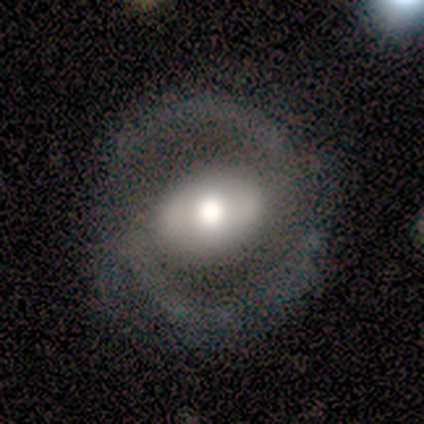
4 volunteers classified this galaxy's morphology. Q: Smooth or featured?
A: featured or disk (75%); runner-up: smooth (25%)
Q: Edge-on disk?
A: no (100%)
Q: Bar?
A: strong (67%); runner-up: weak (33%)
Q: Spiral arms?
A: yes (67%); runner-up: no (33%)
Q: Spiral winding?
A: tight (50%); tied with: loose (50%)
Q: Spiral arm count?
A: 2 (100%)
Q: Bulge size?
A: moderate (67%); runner-up: small (33%)
Q: Merging?
A: none (75%); runner-up: minor disturbance (25%)